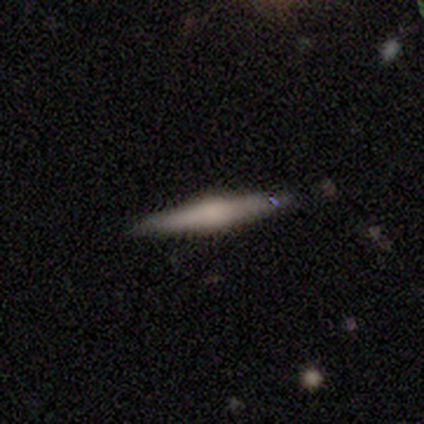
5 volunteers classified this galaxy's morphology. Smooth or featured? featured or disk (80%)
Edge-on disk? yes (75%)
Edge-on bulge? rounded (100%)
Merging? none (60%)